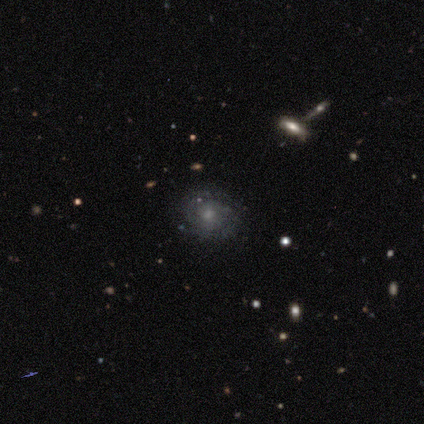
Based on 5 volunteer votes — Smooth or featured? 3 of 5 (60%) said featured or disk. Edge-on disk? 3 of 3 (100%) said no. Bar? 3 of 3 (100%) said no. Spiral arms? 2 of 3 (67%) said yes. Spiral winding? 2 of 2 (100%) said tight. Spiral arm count? 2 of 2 (100%) said 2. Bulge size? 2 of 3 (67%) said moderate. Merging? 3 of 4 (75%) said none.